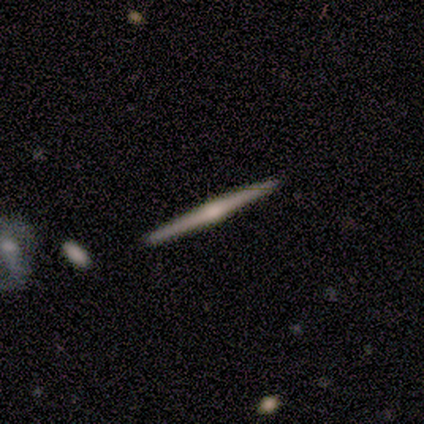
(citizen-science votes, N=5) This is clearly a featured or disk galaxy (80%). It is clearly viewed edge-on (100%). Edge-on bulge: possibly none (50%, tied with rounded). Merging: clearly none (100%).